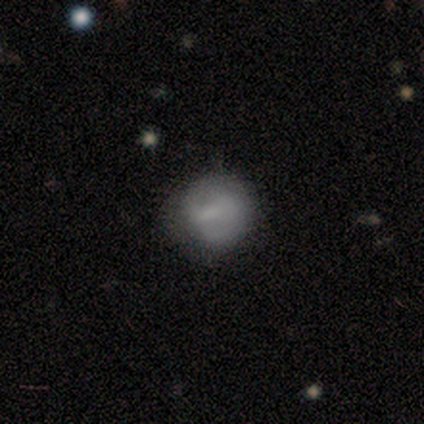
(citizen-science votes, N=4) Smooth or featured: smooth — 100%
How rounded: round — 100%
Merging: none — 50% (minor disturbance — 25%)